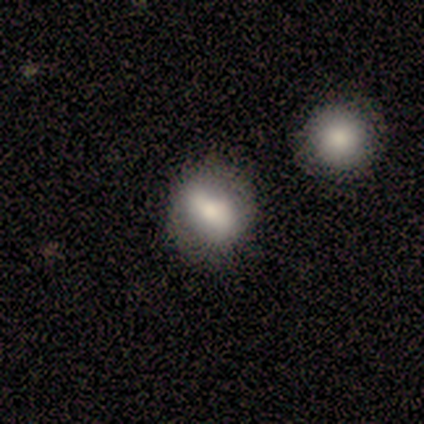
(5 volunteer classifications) A smooth galaxy with no disk features (100%) that is round (60%).

Vote fractions:
- Smooth or featured? smooth: 100% / featured or disk: 0% / star or artifact: 0%
- How rounded? round: 60% / in between: 40% / cigar-shaped: 0%
- Merging? none: 100% / minor disturbance: 0% / major disturbance: 0% / merger: 0%